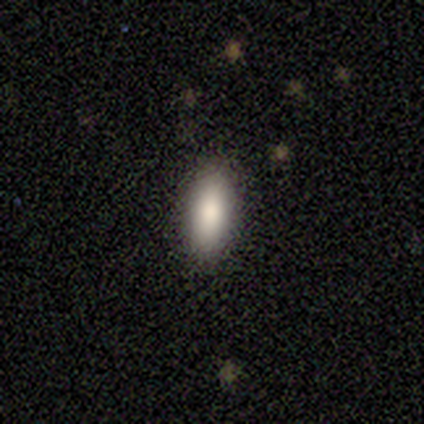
A smooth galaxy with no disk features (67%) that is in between round and cigar-shaped (100%).

Vote fractions:
- Smooth or featured? smooth: 67% / featured or disk: 17% / star or artifact: 17%
- How rounded? in between: 100% / round: 0% / cigar-shaped: 0%
- Merging? none: 100% / minor disturbance: 0% / major disturbance: 0% / merger: 0%